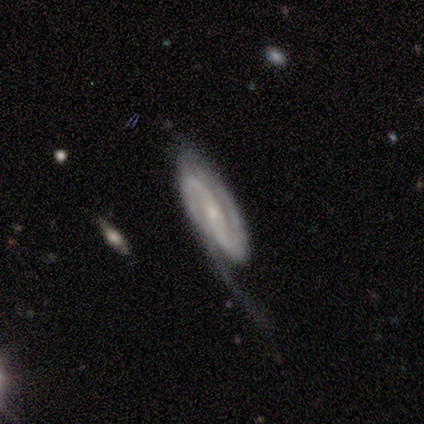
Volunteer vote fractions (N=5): Smooth or featured? 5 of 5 (100%) said featured or disk. Edge-on disk? 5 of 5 (100%) said no. Bar? 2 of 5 (40%, tied with no) said strong. Spiral arms? 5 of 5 (100%) said yes. Spiral winding? 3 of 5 (60%) said medium. Spiral arm count? 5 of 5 (100%) said 2. Bulge size? 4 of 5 (80%) said small. Merging? 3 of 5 (60%) said major disturbance.